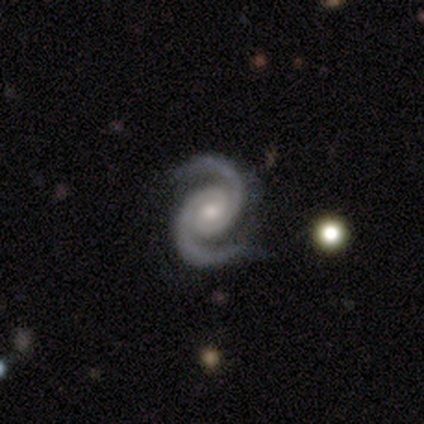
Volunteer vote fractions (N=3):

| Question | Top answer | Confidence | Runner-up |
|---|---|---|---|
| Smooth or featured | featured or disk | 100% | — |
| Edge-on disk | no | 100% | — |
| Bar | no | 67% | weak (33%) |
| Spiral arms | yes | 100% | — |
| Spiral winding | medium | 67% | tight (33%) |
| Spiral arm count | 2 | 100% | — |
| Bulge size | moderate | 100% | — |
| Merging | none | 100% | — |